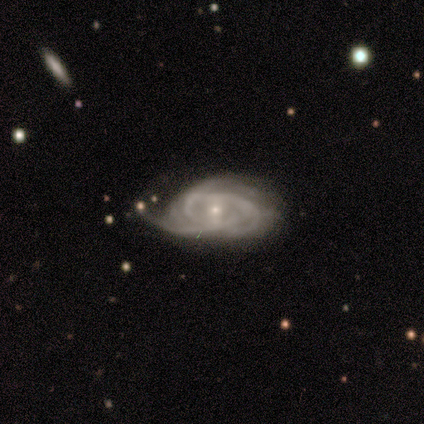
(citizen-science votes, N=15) A featured or disk galaxy (93%) with a weak bar (50%), 2 (30%, tied with 3 and can't tell) tight (60%) spiral arms (71%) and a small central bulge (93%). Merging: none (50%).